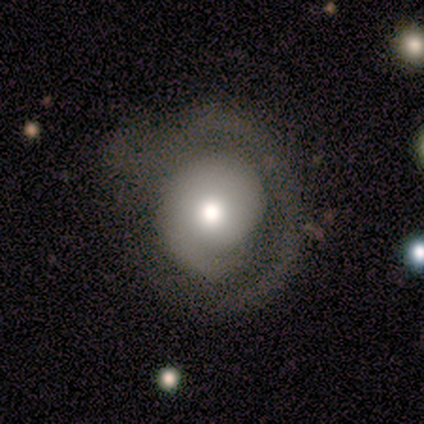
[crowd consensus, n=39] This is possibly a featured or disk galaxy (59%). It is clearly not viewed edge-on (96%). Bar: clearly no (86%). Spiral arm pattern: possibly yes (55%). Spiral arm count: possibly 1 (50%). Spiral winding: likely tight (67%). Central bulge: likely moderate (77%). Merging: marginally minor disturbance (45%).